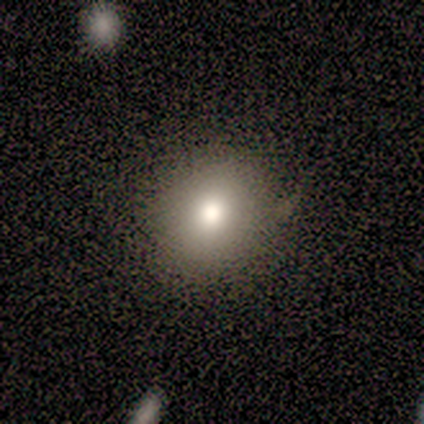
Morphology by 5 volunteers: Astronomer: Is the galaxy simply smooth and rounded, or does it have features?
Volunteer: smooth — 60%.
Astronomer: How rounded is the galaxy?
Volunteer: round — 67%.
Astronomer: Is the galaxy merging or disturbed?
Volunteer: none — 75%.